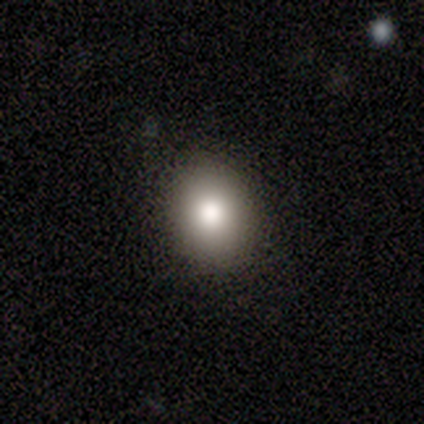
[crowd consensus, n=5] A smooth galaxy with no disk features (60%) that is round (67%).

Vote fractions:
- Smooth or featured? smooth: 60% / featured or disk: 20% / star or artifact: 20%
- How rounded? round: 67% / in between: 33% / cigar-shaped: 0%
- Merging? none: 75% / major disturbance: 25% / minor disturbance: 0% / merger: 0%